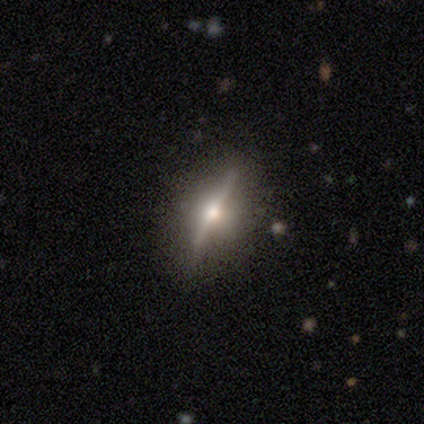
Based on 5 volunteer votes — This appears to be a featured or disk galaxy (60%) viewed edge-on (100%) with a rounded central bulge (100%). Merging: none (67%).